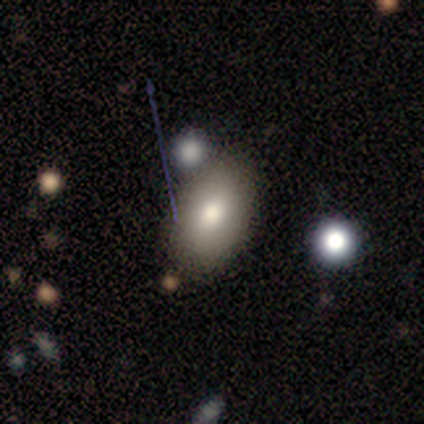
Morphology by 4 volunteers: This appears to be a smooth galaxy with no disk features (75%) that is in between round and cigar-shaped (100%). Merging: none (75%).